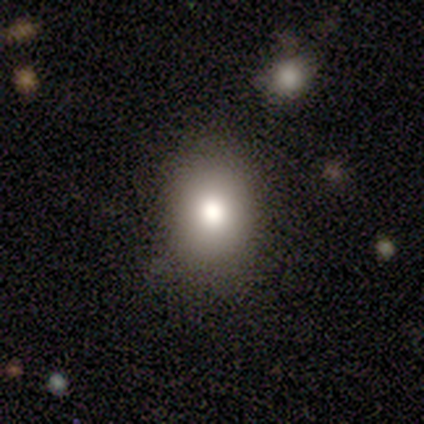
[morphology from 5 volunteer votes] This appears to be a smooth galaxy with no disk features (40%, tied with featured or disk) that is in between round and cigar-shaped (100%). Merging: none (75%).